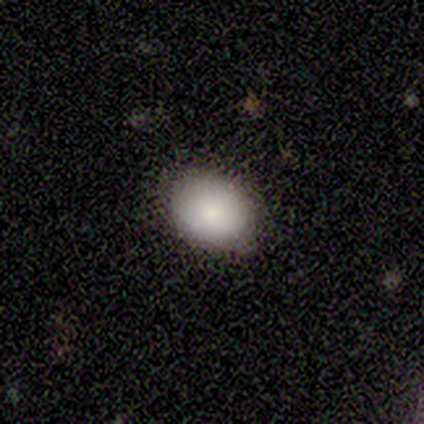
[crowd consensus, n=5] Smooth or featured: smooth — 80% (featured or disk — 20%)
How rounded: in between — 75% (round — 25%)
Merging: none — 60% (minor disturbance — 40%)